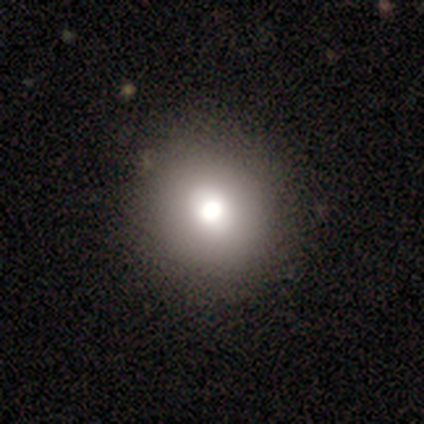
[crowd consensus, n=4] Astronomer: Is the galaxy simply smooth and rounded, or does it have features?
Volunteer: smooth — 100%.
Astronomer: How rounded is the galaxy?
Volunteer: round — 100%.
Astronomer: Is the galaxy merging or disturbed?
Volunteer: none — 100%.